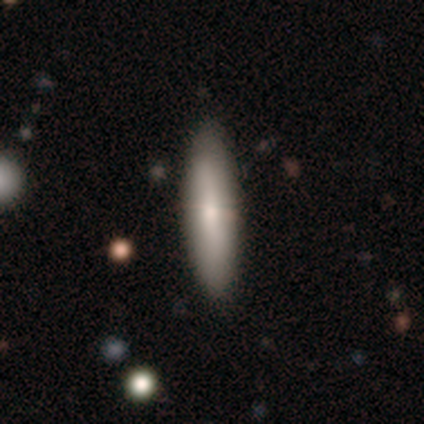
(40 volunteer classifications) smooth-or-featured: smooth: 72% | featured or disk: 25% | star or artifact: 2%
  how-rounded: cigar-shaped: 62% | in between: 34% | round: 3%
  merging: none: 56% | minor disturbance: 10% | major disturbance: 3% | merger: 0%